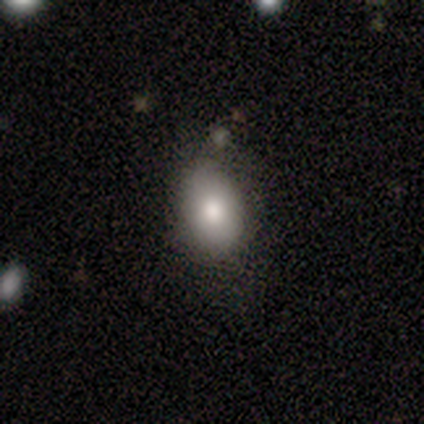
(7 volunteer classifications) Smooth or featured?
  - smooth: 86% *
  - featured or disk: 14%
  - star or artifact: 0%
How rounded?
  - round: 50% * (tied)
  - in between: 50% * (tied)
  - cigar-shaped: 0%
Merging?
  - none: 57% *
  - major disturbance: 29%
  - minor disturbance: 14%
  - merger: 0%